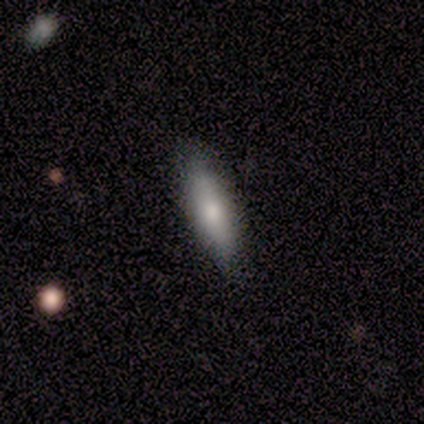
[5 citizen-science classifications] Smooth or featured? smooth (80%)
How rounded? cigar-shaped (75%)
Merging? none (80%)